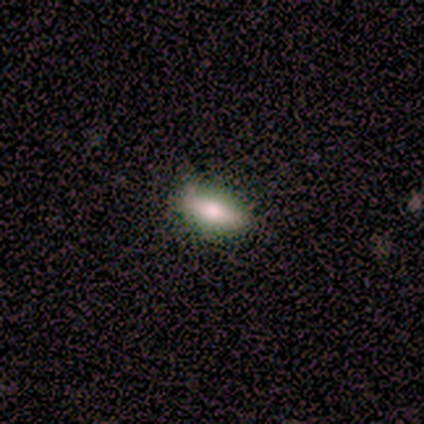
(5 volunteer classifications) Smooth or featured: smooth — 100%
How rounded: in between — 60% (cigar-shaped — 40%)
Merging: none — 60% (minor disturbance — 40%)